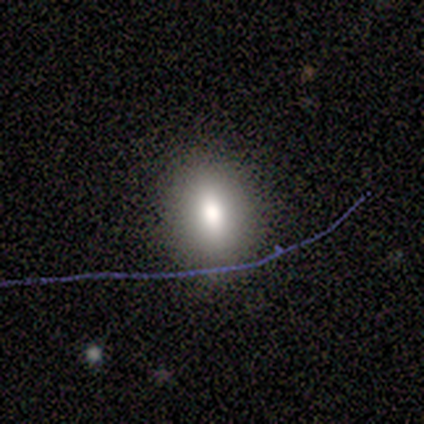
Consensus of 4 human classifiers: Smooth or featured?
  - smooth: 50% *
  - featured or disk: 25%
  - star or artifact: 25%
How rounded?
  - round: 100% *
  - in between: 0%
  - cigar-shaped: 0%
Merging?
  - none: 67% *
  - minor disturbance: 33%
  - major disturbance: 0%
  - merger: 0%